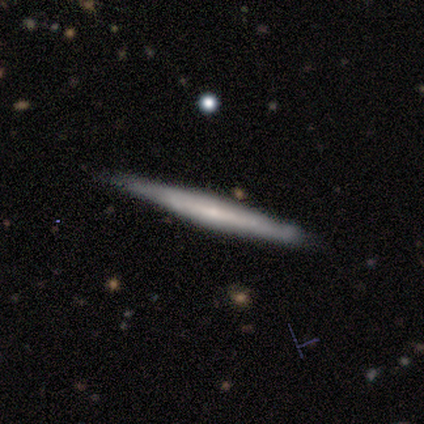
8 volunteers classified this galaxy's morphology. smooth_or_featured: featured or disk (p=0.75) [alt: smooth p=0.25]
disk_edge_on: yes (p=1.00)
edge_on_bulge: none (p=1.00)
merging: none (p=1.00)